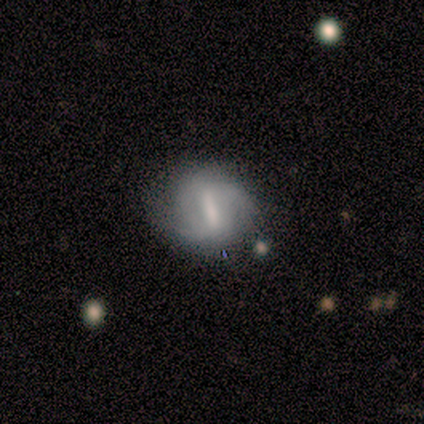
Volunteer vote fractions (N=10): This appears to be a featured or disk galaxy (80%) with a strong bar (50%, tied with weak), 2 (60%) tight (60%) spiral arms (62%) and a small central bulge (50%). Merging: none (80%).